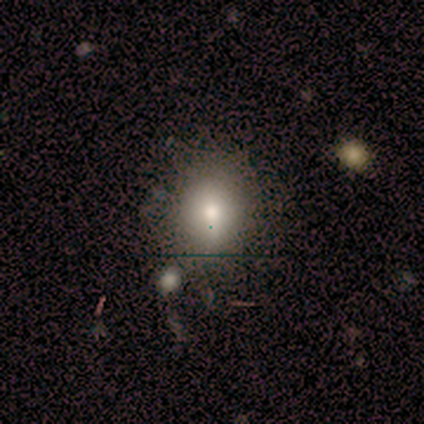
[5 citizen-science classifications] Smooth or featured?
  - smooth: 60% *
  - star or artifact: 40%
  - featured or disk: 0%
How rounded?
  - round: 67% *
  - in between: 33%
  - cigar-shaped: 0%
Merging?
  - none: 100% *
  - minor disturbance: 0%
  - major disturbance: 0%
  - merger: 0%